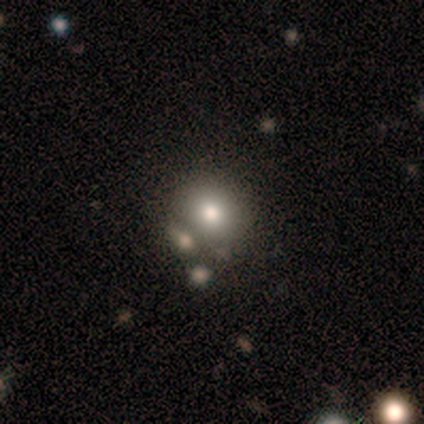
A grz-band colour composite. It shows a smooth galaxy with no disk features (60%) that is round (100%). Merging: none (75%).